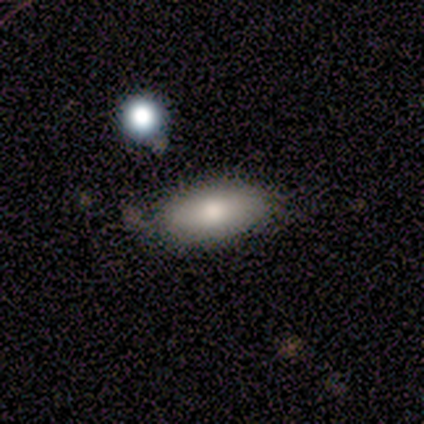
Overall: smooth (75%). How rounded: in between (85%). Merging: none (71%).